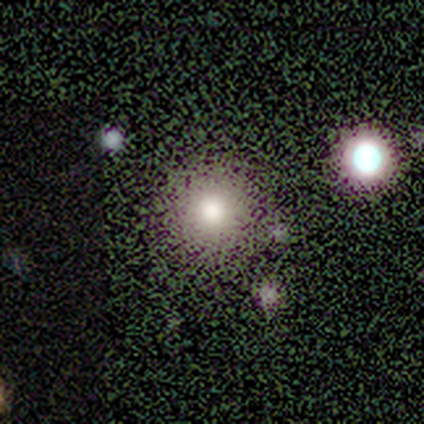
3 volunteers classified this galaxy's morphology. A smooth galaxy with no disk features (100%) that is round (67%).

Vote fractions:
- Smooth or featured? smooth: 100% / featured or disk: 0% / star or artifact: 0%
- How rounded? round: 67% / in between: 33% / cigar-shaped: 0%
- Merging? none: 100% / minor disturbance: 0% / major disturbance: 0% / merger: 0%